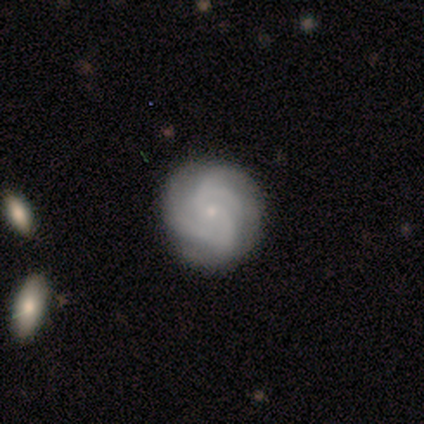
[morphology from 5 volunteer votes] smooth-or-featured: featured or disk: 100% | smooth: 0% | star or artifact: 0%
  disk-edge-on: no: 80% | yes: 20%
    bar: no: 100% | strong: 0% | weak: 0%
    has-spiral-arms: yes: 100% | no: 0%
      spiral-winding: tight: 75% | medium: 25% | loose: 0%
      spiral-arm-count: 1: 25% (tied) | 2: 25% (tied) | 3: 25% (tied) | can't tell: 25% (tied) | 4: 0% | more than 4: 0%
    bulge-size: small: 75% | none: 25% | dominant: 0% | large: 0% | moderate: 0%
  merging: none: 100% | minor disturbance: 0% | major disturbance: 0% | merger: 0%